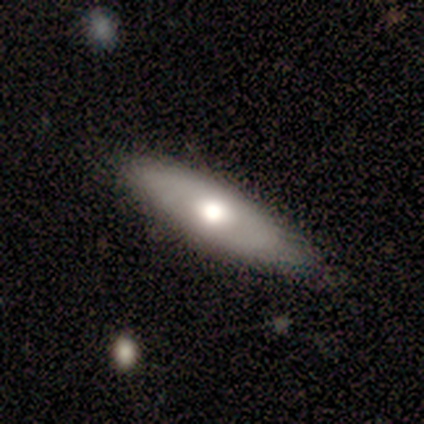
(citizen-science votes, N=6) smooth_or_featured: smooth (p=0.83) [alt: featured or disk p=0.17]
how_rounded: cigar-shaped (p=0.80) [alt: in between p=0.20]
merging: none (p=0.83) [alt: major disturbance p=0.17]